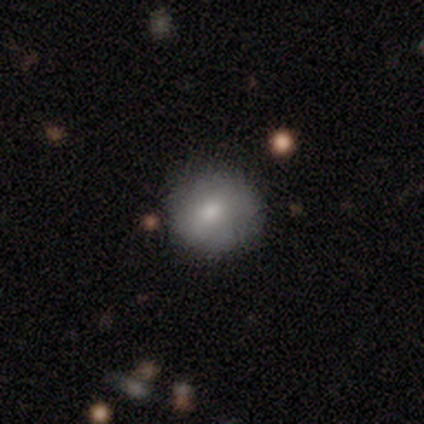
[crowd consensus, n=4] Volunteers were most divided on "smooth or featured" (2-way tie): smooth: 50%, star or artifact: 50%, featured or disk: 0%. More confident: how rounded — round (100%); merging — none (100%).